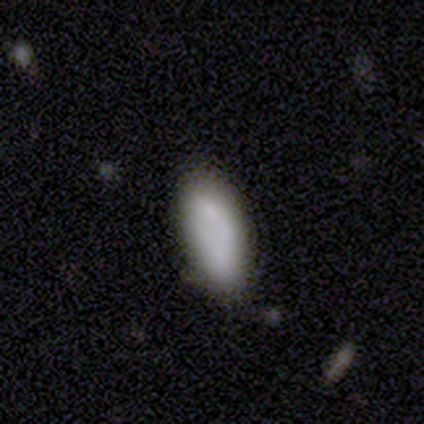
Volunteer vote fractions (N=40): smooth-or-featured: smooth: 78% | featured or disk: 18% | star or artifact: 5%
  how-rounded: in between: 87% | cigar-shaped: 13% | round: 0%
  merging: none: 66% | minor disturbance: 16% | merger: 13% | major disturbance: 5%